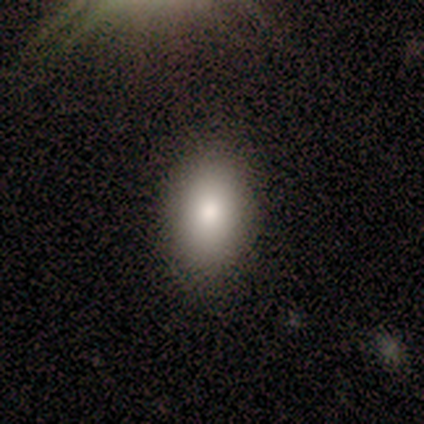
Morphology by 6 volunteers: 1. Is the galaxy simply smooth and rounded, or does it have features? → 100% smooth, 0% featured or disk, 0% star or artifact.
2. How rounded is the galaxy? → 83% in between, 17% round, 0% cigar-shaped.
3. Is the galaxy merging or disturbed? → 67% none, 33% minor disturbance, 0% major disturbance, 0% merger.